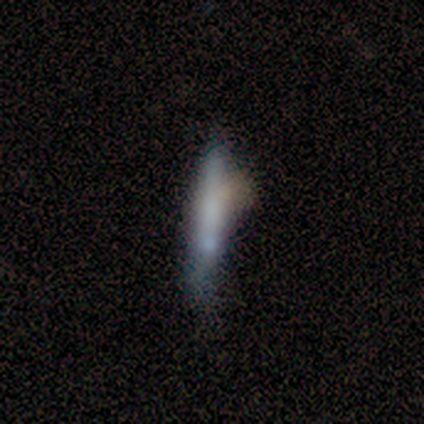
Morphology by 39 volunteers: Smooth or featured?
  - smooth: 54% *
  - featured or disk: 38%
  - star or artifact: 8%
How rounded?
  - cigar-shaped: 95% *
  - in between: 5%
  - round: 0%
Merging?
  - none: 44% *
  - minor disturbance: 33%
  - merger: 14%
  - major disturbance: 8%